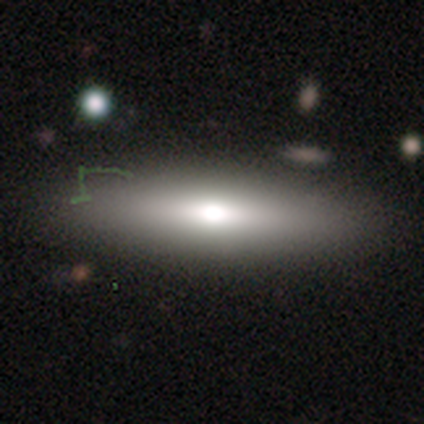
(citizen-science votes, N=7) Morphology: type=smooth (71%); roundness=in between (60%); merging=none (80%).